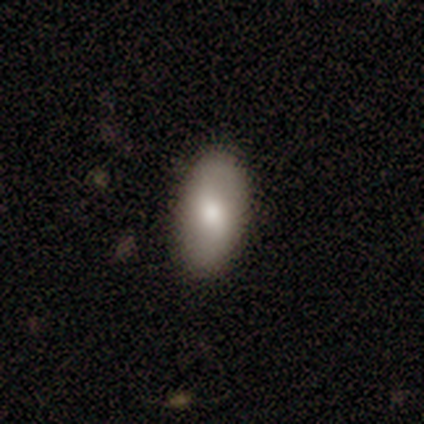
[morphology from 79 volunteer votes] Q: Smooth or featured?
A: smooth (75%); runner-up: featured or disk (19%)
Q: How rounded?
A: in between (90%); runner-up: round (7%)
Q: Merging?
A: none (47%); runner-up: minor disturbance (3%)